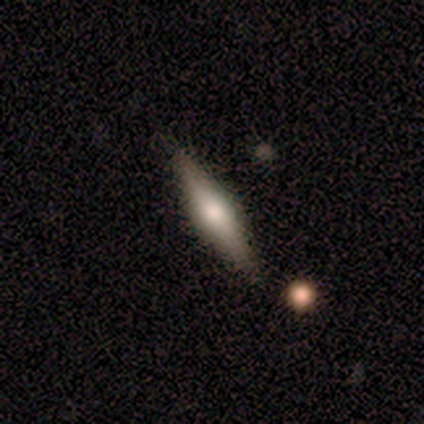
Smooth or featured?
  - featured or disk: 60% *
  - smooth: 20%
  - star or artifact: 20%
Edge-on disk?
  - yes: 100% *
  - no: 0%
Edge-on bulge?
  - rounded: 100% *
  - boxy: 0%
  - none: 0%
Merging?
  - none: 75% *
  - minor disturbance: 25%
  - major disturbance: 0%
  - merger: 0%